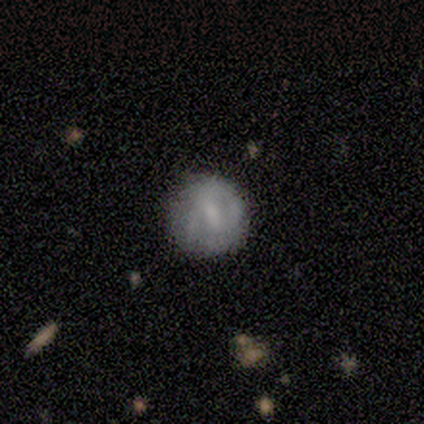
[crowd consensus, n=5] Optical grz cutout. It shows a smooth galaxy with no disk features (60%) that is round (100%). Merging: none (100%).